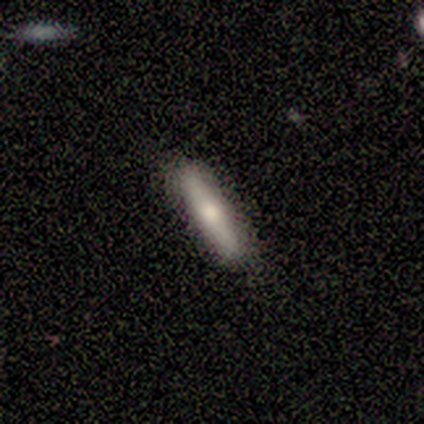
Overall: smooth (63%; featured or disk 34%). How rounded: cigar-shaped (92%). Merging: none (86%).